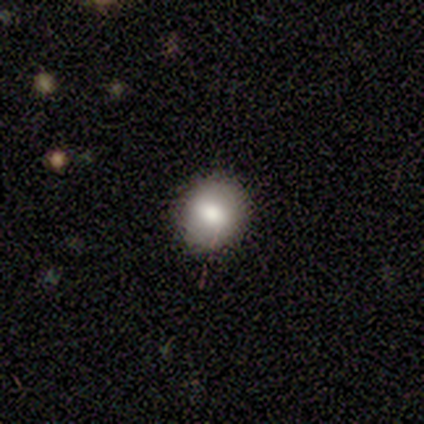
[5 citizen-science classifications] Morphology: type=smooth (100%); roundness=round (80%); merging=none (100%).